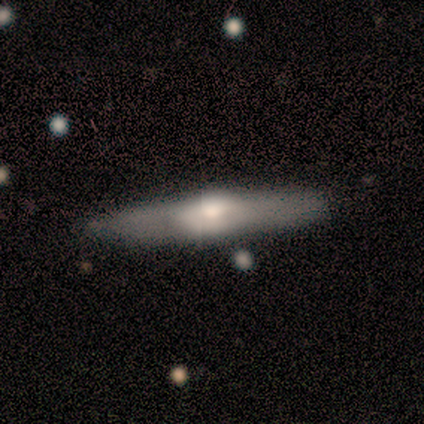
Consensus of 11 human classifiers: This is likely a featured or disk galaxy (73%). It is clearly viewed edge-on (100%). Edge-on bulge: likely rounded (62%). Merging: clearly none (82%).